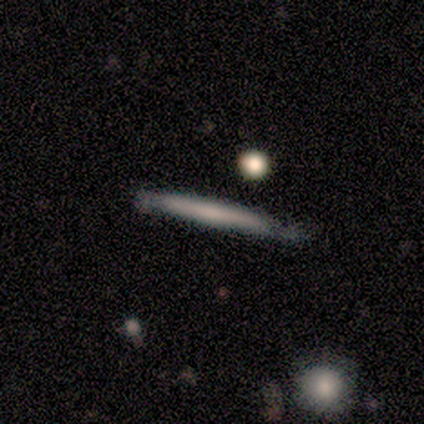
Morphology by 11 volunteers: A smooth galaxy with no disk features (55%) that is cigar-shaped (100%). Merging: none (82%).